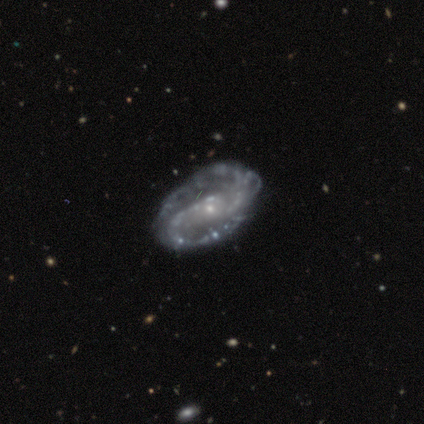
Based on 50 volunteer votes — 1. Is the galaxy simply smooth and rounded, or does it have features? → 86% featured or disk, 10% star or artifact, 4% smooth.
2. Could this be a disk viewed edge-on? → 100% no, 0% yes.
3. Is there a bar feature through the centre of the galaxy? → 53% no, 23% strong, 23% weak.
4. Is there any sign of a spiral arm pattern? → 95% yes, 5% no.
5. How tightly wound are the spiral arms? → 44% tight (tied), 44% medium (tied), 12% loose.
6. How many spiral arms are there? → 93% 2, 5% can't tell, 2% 1, 0% 3, 0% 4, 0% more than 4.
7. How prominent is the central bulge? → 84% small, 12% moderate, 2% large, 2% none, 0% dominant.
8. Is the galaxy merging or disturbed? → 56% none, 27% minor disturbance, 16% major disturbance, 2% merger.